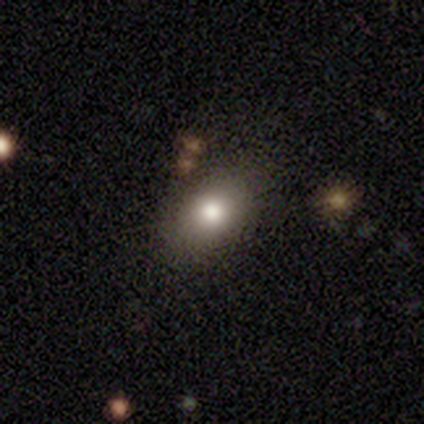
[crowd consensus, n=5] Q: Smooth or featured?
A: smooth (60%); runner-up: featured or disk (40%)
Q: How rounded?
A: in between (100%)
Q: Merging?
A: none (60%); runner-up: minor disturbance (20%)